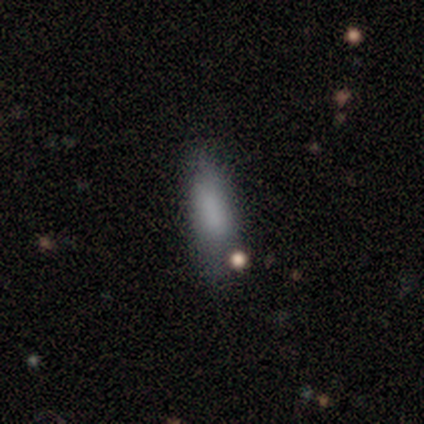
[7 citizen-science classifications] smooth-or-featured: smooth: 86% | featured or disk: 14% | star or artifact: 0%
  how-rounded: in between: 50% (tied) | cigar-shaped: 50% (tied) | round: 0%
  merging: minor disturbance: 57% | none: 29% | major disturbance: 14% | merger: 0%